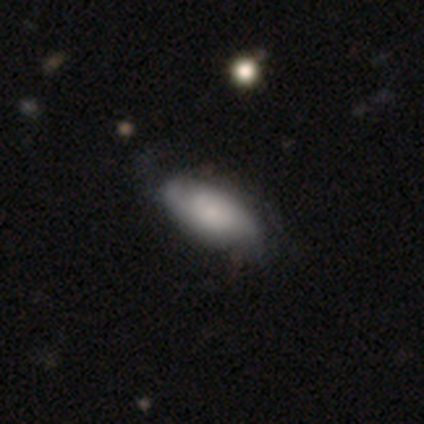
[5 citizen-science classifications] Smooth or featured? 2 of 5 (40%, tied with featured or disk) said smooth. How rounded? 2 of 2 (100%) said in between. Merging? 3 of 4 (75%) said none.